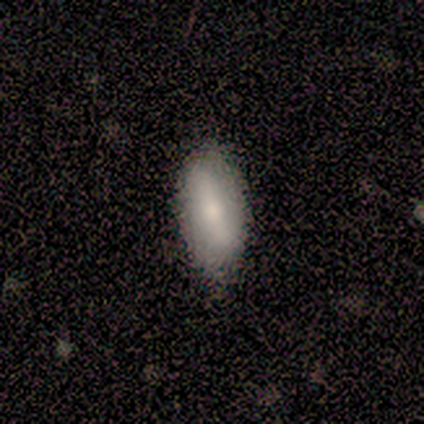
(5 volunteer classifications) This appears to be a featured or disk galaxy (60%) with a strong bar (67%), no spiral arms (67%) and a large central bulge (67%). Merging: none (100%).